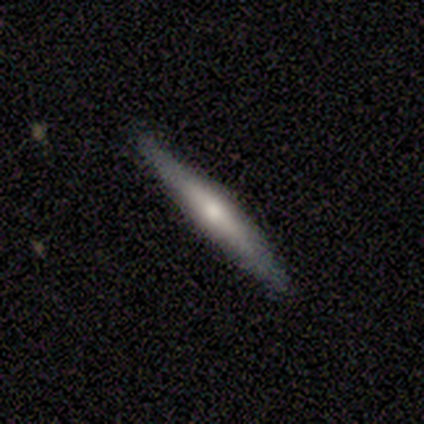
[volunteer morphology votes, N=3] This appears to be a smooth galaxy with no disk features (67%) that is round (50%, tied with cigar-shaped). Merging: none (50%, tied with merger).